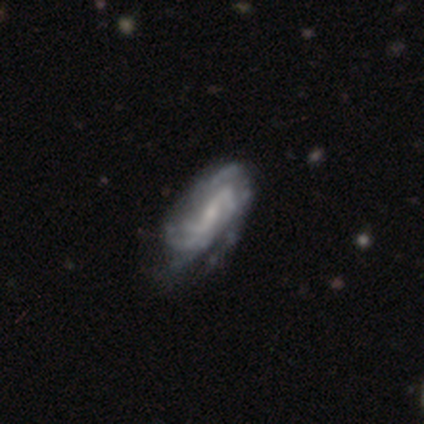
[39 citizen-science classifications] featured or disk 92%, smooth 5%, star or artifact 3%. Down the decision tree: edge-on disk — no (94%); bar — weak (44%); spiral arms — yes (100%); spiral arm count — can't tell (38%); spiral winding — tight (50%); bulge size — small (59%); merging — none (47%).